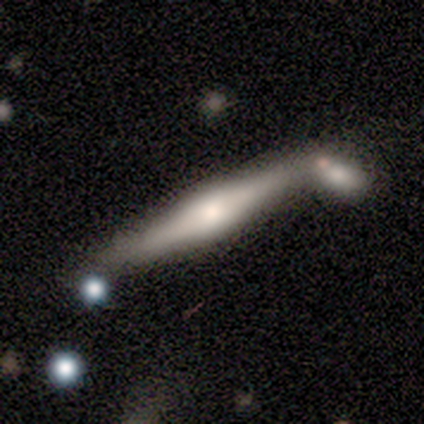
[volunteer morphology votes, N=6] Smooth or featured?
  - featured or disk: 67% *
  - smooth: 33%
  - star or artifact: 0%
Edge-on disk?
  - yes: 75% *
  - no: 25%
Edge-on bulge?
  - rounded: 100% *
  - boxy: 0%
  - none: 0%
Merging?
  - none: 33% * (tied)
  - minor disturbance: 33% * (tied)
  - merger: 33% * (tied)
  - major disturbance: 0%